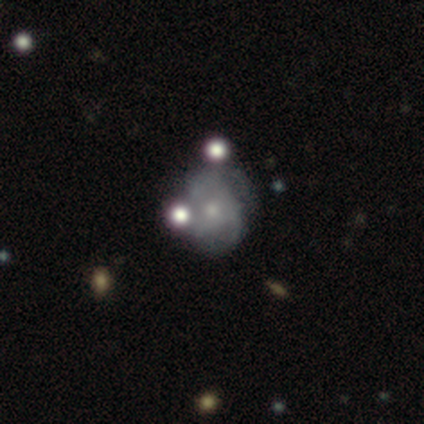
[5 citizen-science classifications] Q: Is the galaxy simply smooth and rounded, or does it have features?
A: smooth — 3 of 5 (60%).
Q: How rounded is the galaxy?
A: round — 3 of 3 (100%).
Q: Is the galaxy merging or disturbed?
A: minor disturbance — 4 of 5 (80%).